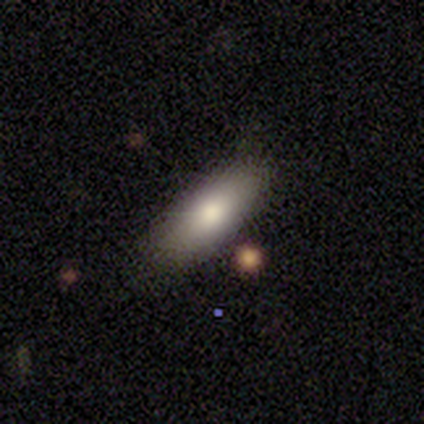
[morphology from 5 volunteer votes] A smooth galaxy with no disk features (100%) that is in between round and cigar-shaped (100%).

Vote fractions:
- Smooth or featured? smooth: 100% / featured or disk: 0% / star or artifact: 0%
- How rounded? in between: 100% / round: 0% / cigar-shaped: 0%
- Merging? none: 100% / minor disturbance: 0% / major disturbance: 0% / merger: 0%